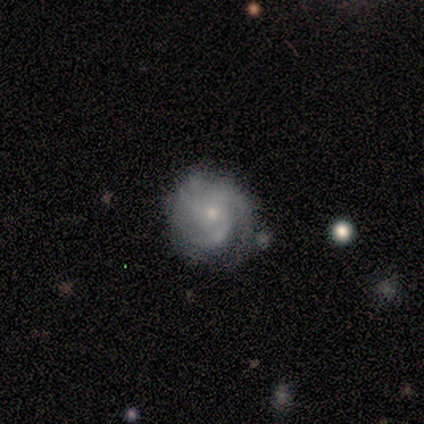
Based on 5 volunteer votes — Smooth or featured? 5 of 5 (100%) said featured or disk. Edge-on disk? 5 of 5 (100%) said no. Bar? 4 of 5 (80%) said no. Spiral arms? 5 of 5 (100%) said yes. Spiral winding? 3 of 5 (60%) said medium. Spiral arm count? 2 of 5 (40%) said 3. Bulge size? 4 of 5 (80%) said small. Merging? 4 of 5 (80%) said none.